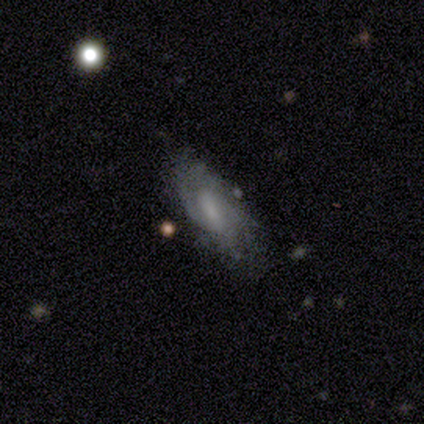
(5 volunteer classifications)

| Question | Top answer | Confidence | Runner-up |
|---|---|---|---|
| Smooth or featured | featured or disk | 80% | smooth (20%) |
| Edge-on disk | no | 100% | — |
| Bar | weak | 50% | strong (25%) |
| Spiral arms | yes | 100% | — |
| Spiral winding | tight | 50% | tied: medium (50%) |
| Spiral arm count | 2 | 50% | tied: can't tell (50%) |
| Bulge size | none | 50% | moderate (25%) |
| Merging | none | 80% | minor disturbance (20%) |